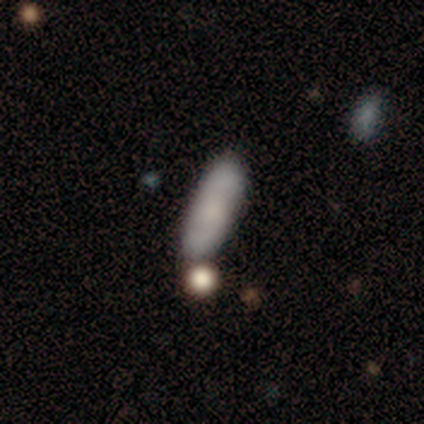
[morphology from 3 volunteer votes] Smooth or featured? smooth (67%)
How rounded? in between (50%, tied with cigar-shaped)
Merging? none (67%)